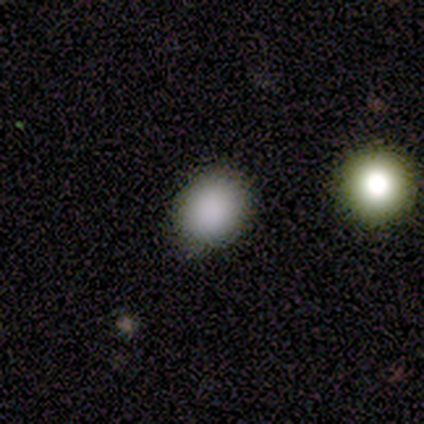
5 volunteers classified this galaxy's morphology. Overall: smooth (100%). How rounded: round (80%). Merging: none (100%).